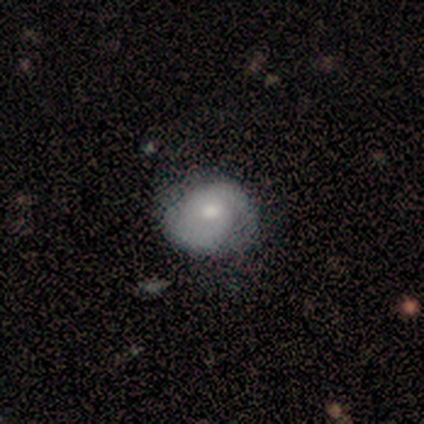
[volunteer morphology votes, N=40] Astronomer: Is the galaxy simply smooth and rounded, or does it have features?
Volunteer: featured or disk — 57% (runner-up: smooth, 38%).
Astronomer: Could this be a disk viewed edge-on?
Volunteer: no — 100%.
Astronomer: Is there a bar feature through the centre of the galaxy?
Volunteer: no — 74%.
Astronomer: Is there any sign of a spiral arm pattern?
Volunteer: yes — 96%.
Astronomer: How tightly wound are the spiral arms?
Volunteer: tight — 55% (runner-up: medium, 41%).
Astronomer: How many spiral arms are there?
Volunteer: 2 — 77%.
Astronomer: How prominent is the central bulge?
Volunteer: moderate — 57% (runner-up: small, 39%).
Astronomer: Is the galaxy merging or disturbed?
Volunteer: none — 47%.